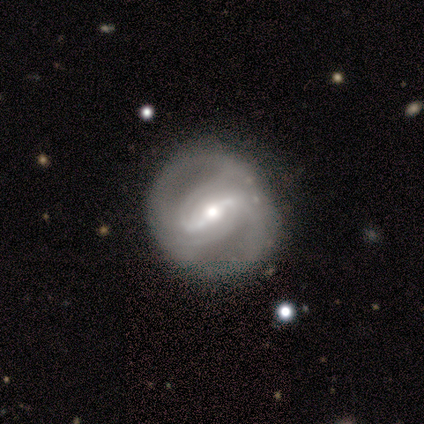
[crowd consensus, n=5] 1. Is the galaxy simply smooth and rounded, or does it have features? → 100% featured or disk, 0% smooth, 0% star or artifact.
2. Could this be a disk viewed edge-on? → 100% no, 0% yes.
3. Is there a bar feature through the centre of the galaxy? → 100% strong, 0% weak, 0% no.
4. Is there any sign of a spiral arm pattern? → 80% yes, 20% no.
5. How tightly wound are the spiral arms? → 75% tight, 25% medium, 0% loose.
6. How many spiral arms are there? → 25% 2 (tied), 25% 3 (tied), 25% 4 (tied), 25% can't tell (tied), 0% 1, 0% more than 4.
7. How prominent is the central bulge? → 40% moderate (tied), 40% small (tied), 20% large, 0% dominant, 0% none.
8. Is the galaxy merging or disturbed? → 100% none, 0% minor disturbance, 0% major disturbance, 0% merger.